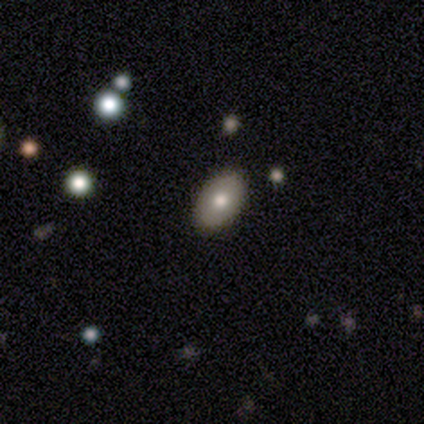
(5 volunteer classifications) A smooth galaxy with no disk features (100%) that is in between round and cigar-shaped (100%).

Vote fractions:
- Smooth or featured? smooth: 100% / featured or disk: 0% / star or artifact: 0%
- How rounded? in between: 100% / round: 0% / cigar-shaped: 0%
- Merging? none: 80% / minor disturbance: 20% / major disturbance: 0% / merger: 0%